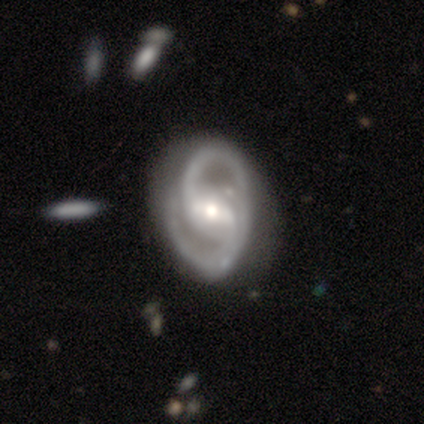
This is clearly a featured or disk galaxy (80%). It is clearly not viewed edge-on (100%). Bar: likely strong (75%). Spiral arm pattern: clearly yes (100%). Spiral arm count: likely 2 (75%). Spiral winding: possibly medium (50%). Central bulge: likely moderate (75%). Merging: likely minor disturbance (75%).